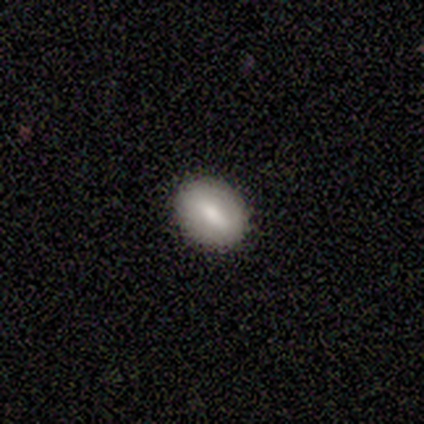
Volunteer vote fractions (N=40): A smooth galaxy with no disk features (52%) that is in between round and cigar-shaped (62%). Merging: none (83%).